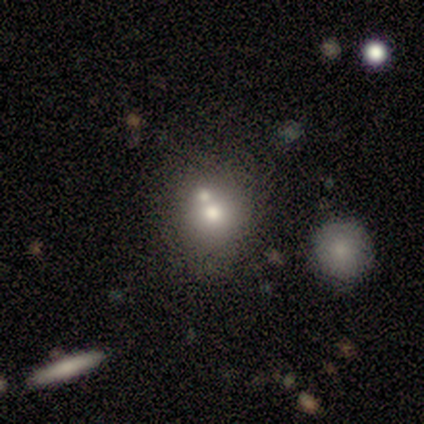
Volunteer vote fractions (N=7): A smooth galaxy with no disk features (71%) that is round (100%). Merging: none (57%).